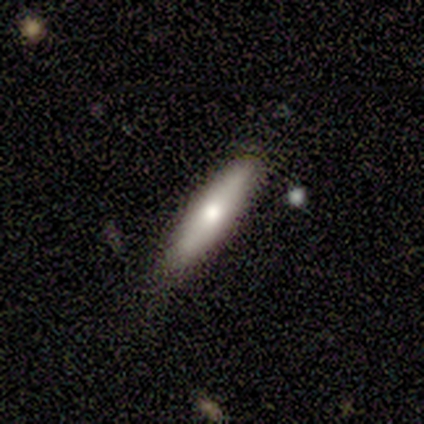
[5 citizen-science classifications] smooth-or-featured: smooth: 60% | featured or disk: 40% | star or artifact: 0%
  how-rounded: in between: 67% | cigar-shaped: 33% | round: 0%
  merging: none: 100% | minor disturbance: 0% | major disturbance: 0% | merger: 0%